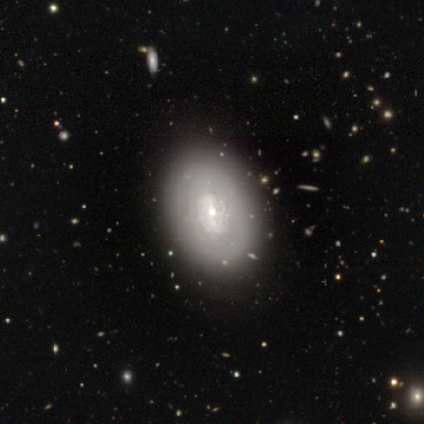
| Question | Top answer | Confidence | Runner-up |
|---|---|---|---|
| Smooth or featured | smooth | 60% | featured or disk (40%) |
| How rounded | in between | 100% | — |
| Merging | none | 80% | minor disturbance (20%) |